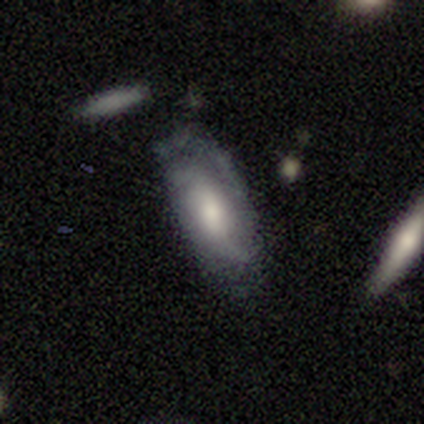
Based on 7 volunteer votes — Smooth or featured? featured or disk (71%)
Edge-on disk? no (100%)
Bar? weak (60%)
Spiral arms? yes (60%)
Spiral winding? tight (33%, tied with medium and loose)
Spiral arm count? 3 (67%)
Bulge size? large (60%)
Merging? none (67%)